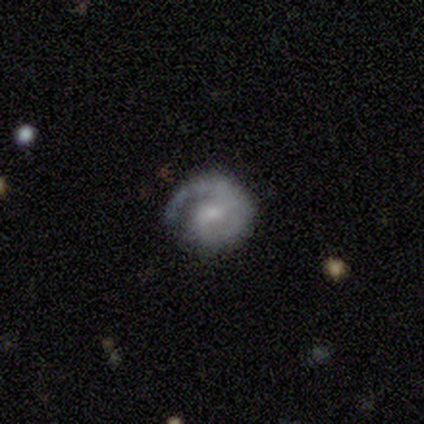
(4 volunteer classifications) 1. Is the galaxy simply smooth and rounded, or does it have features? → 100% featured or disk, 0% smooth, 0% star or artifact.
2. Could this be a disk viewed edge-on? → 100% no, 0% yes.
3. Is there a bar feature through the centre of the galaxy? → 75% no, 25% weak, 0% strong.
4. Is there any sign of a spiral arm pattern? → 100% yes, 0% no.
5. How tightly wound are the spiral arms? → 100% tight, 0% medium, 0% loose.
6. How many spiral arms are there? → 100% 1, 0% 2, 0% 3, 0% 4, 0% more than 4, 0% can't tell.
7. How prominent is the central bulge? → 100% small, 0% dominant, 0% large, 0% moderate, 0% none.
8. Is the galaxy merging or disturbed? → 75% none, 25% minor disturbance, 0% major disturbance, 0% merger.